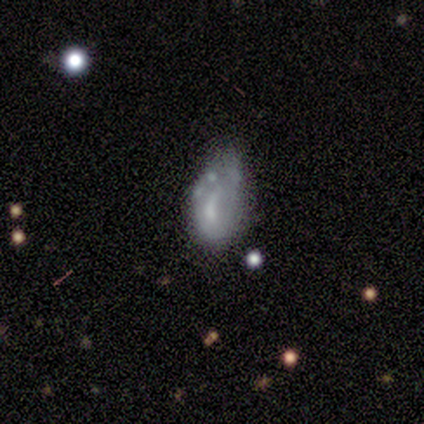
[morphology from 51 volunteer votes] featured or disk 61%, smooth 31%, star or artifact 8%. Down the decision tree: edge-on disk — no (97%); bar — no (63%); spiral arms — no (70%); bulge size — moderate (40%); merging — minor disturbance (51%).